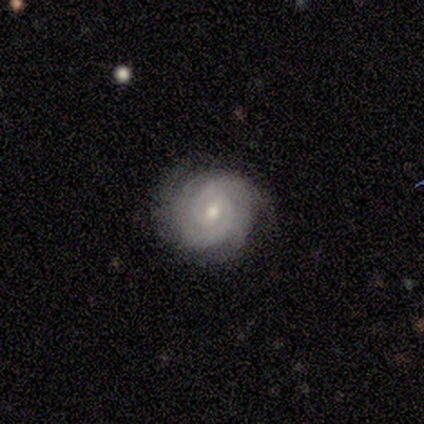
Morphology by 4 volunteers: Q: Smooth or featured?
A: featured or disk (75%); runner-up: smooth (25%)
Q: Edge-on disk?
A: no (100%)
Q: Bar?
A: no (67%); runner-up: weak (33%)
Q: Spiral arms?
A: yes (100%)
Q: Spiral winding?
A: tight (67%); runner-up: medium (33%)
Q: Spiral arm count?
A: 2 (100%)
Q: Bulge size?
A: small (67%); runner-up: moderate (33%)
Q: Merging?
A: none (75%); runner-up: minor disturbance (25%)